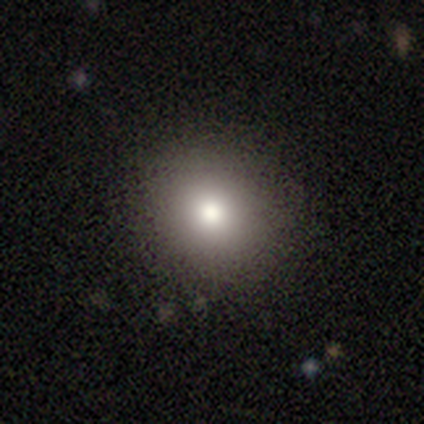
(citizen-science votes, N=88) A smooth galaxy with no disk features (80%) that is round (84%).

Vote fractions:
- Smooth or featured? smooth: 80% / star or artifact: 11% / featured or disk: 9%
- How rounded? round: 84% / in between: 16% / cigar-shaped: 0%
- Merging? none: 90% / minor disturbance: 6% / merger: 3% / major disturbance: 1%